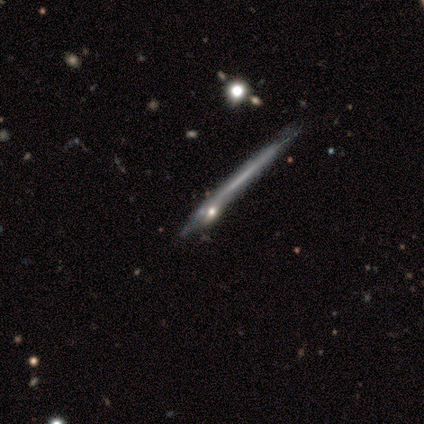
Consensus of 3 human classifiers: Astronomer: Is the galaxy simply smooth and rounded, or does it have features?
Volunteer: smooth — 33%, tied with featured or disk and star or artifact at 33%.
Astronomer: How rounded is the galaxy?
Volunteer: cigar-shaped — 100%.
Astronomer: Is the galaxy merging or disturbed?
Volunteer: none — 100%.